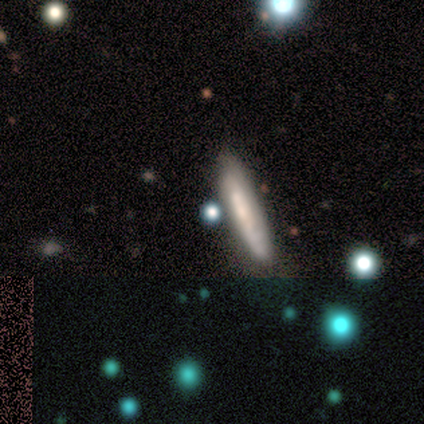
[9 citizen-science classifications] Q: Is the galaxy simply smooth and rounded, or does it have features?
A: smooth — 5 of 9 (56%).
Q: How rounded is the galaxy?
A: cigar-shaped — 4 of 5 (80%).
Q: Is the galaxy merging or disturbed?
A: none — 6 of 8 (75%).